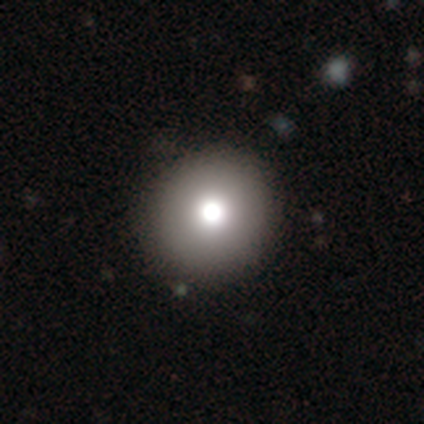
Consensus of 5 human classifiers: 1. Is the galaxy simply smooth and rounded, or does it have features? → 80% smooth, 20% star or artifact, 0% featured or disk.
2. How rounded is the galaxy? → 75% round, 25% in between, 0% cigar-shaped.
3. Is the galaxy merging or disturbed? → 75% none, 25% minor disturbance, 0% major disturbance, 0% merger.